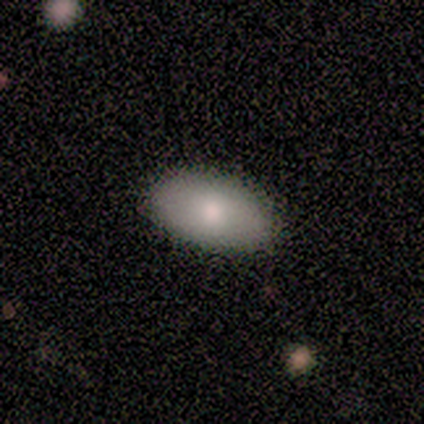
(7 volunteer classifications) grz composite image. It shows a smooth galaxy with no disk features (86%) that is in between round and cigar-shaped (100%). Merging: none (100%).